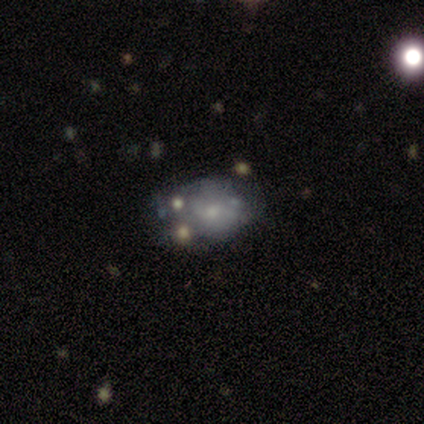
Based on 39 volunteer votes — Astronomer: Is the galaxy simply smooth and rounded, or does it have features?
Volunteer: smooth — 51% (runner-up: featured or disk, 49%).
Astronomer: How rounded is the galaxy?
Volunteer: in between — 70%.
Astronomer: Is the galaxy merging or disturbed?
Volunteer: none — 41% (runner-up: minor disturbance, 31%).